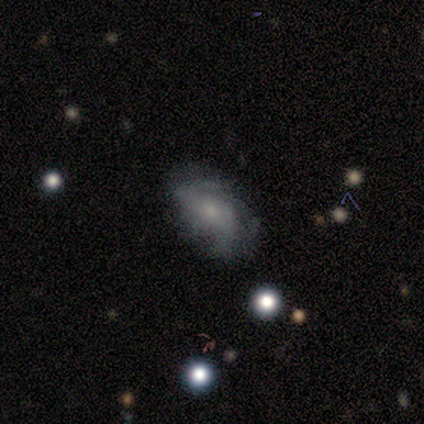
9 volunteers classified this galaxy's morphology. Volunteers were most divided on "spiral winding": medium: 50%, loose: 33%, tight: 17%. More confident: edge-on disk — no (100%); spiral arms — yes (100%); merging — none (75%); bar — no (67%); smooth or featured — featured or disk (67%); spiral arm count — 2 (67%); bulge size — small (50%).